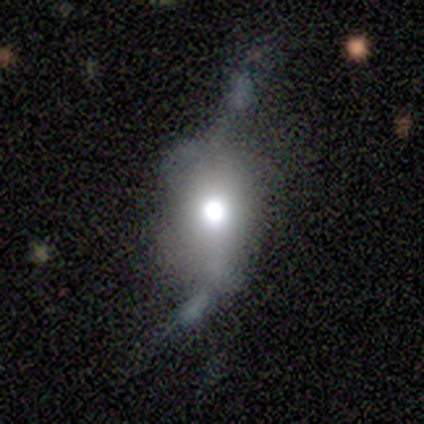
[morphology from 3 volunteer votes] Overall: featured or disk (67%; smooth 33%). Edge-on disk: no (100%). Bar: no (100%). Spiral arms: yes (50%, tied with no). Spiral arm count: can't tell (100%). Spiral winding: medium (100%). Bulge size: large (50%, tied with moderate). Merging: major disturbance (100%).